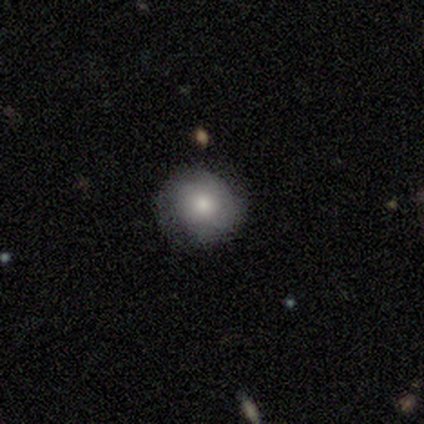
Smooth or featured? smooth (63%)
How rounded? round (96%)
Merging? none (89%)